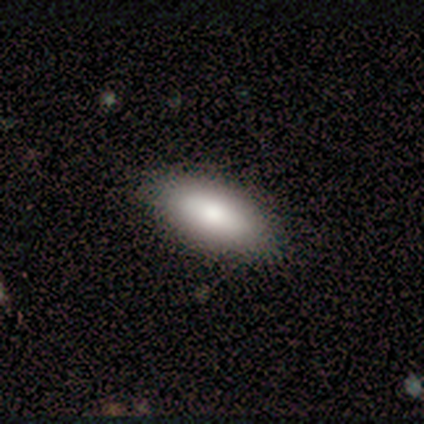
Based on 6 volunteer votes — A smooth galaxy with no disk features (83%) that is in between round and cigar-shaped (80%).

Vote fractions:
- Smooth or featured? smooth: 83% / featured or disk: 17% / star or artifact: 0%
- How rounded? in between: 80% / cigar-shaped: 20% / round: 0%
- Merging? none: 50% (tied) / minor disturbance: 50% (tied) / major disturbance: 0% / merger: 0%